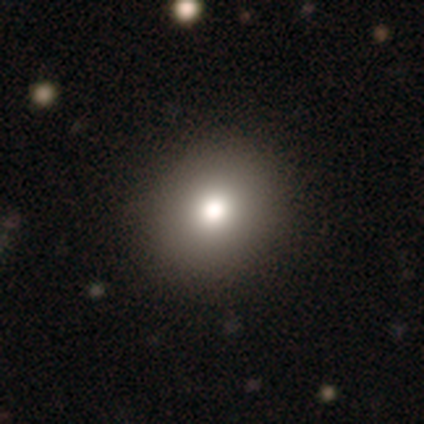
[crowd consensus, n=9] Morphology: type=smooth (78%); roundness=round (86%); merging=none (100%).